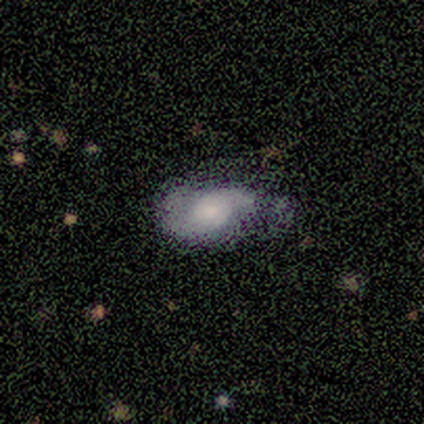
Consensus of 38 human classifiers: featured or disk 61%, smooth 34%, star or artifact 5%. Down the decision tree: edge-on disk — no (100%); bar — no (87%); spiral arms — yes (74%); spiral arm count — 2 (65%); spiral winding — medium (47%); bulge size — small (43%); merging — minor disturbance (39%).